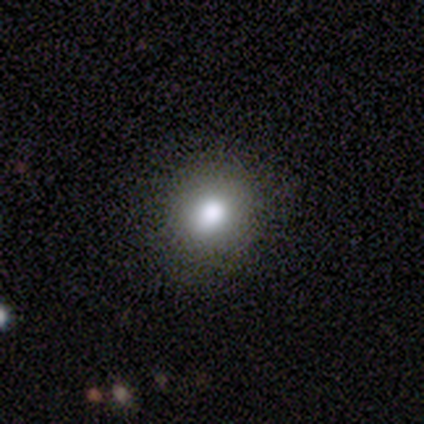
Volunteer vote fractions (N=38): This appears to be a smooth galaxy with no disk features (82%) that is round (74%). Merging: none (75%).